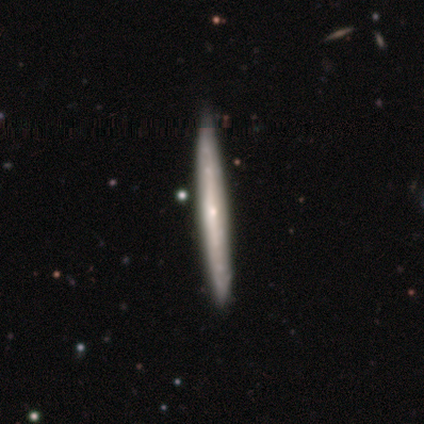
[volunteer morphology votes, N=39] Smooth or featured? 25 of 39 (64%) said featured or disk. Edge-on disk? 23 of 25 (92%) said yes. Edge-on bulge? 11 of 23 (48%, tied with rounded) said none. Merging? 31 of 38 (82%) said none.